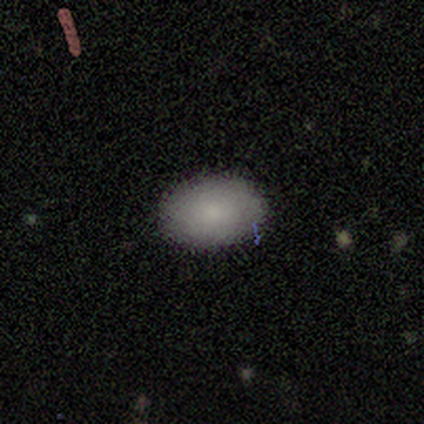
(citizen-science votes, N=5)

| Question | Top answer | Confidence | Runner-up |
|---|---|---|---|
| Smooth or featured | smooth | 100% | — |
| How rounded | in between | 100% | — |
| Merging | none | 100% | — |